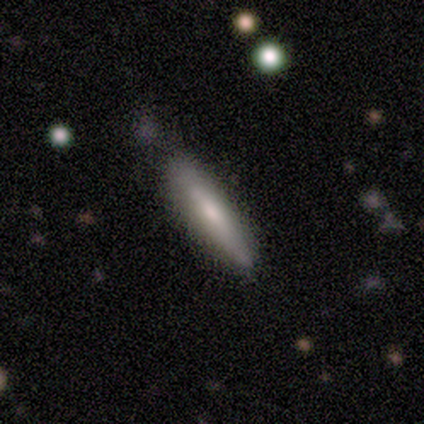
A smooth galaxy with no disk features (100%) that is cigar-shaped (80%).

Vote fractions:
- Smooth or featured? smooth: 100% / featured or disk: 0% / star or artifact: 0%
- How rounded? cigar-shaped: 80% / in between: 20% / round: 0%
- Merging? none: 40% (tied) / minor disturbance: 40% (tied) / major disturbance: 20% / merger: 0%